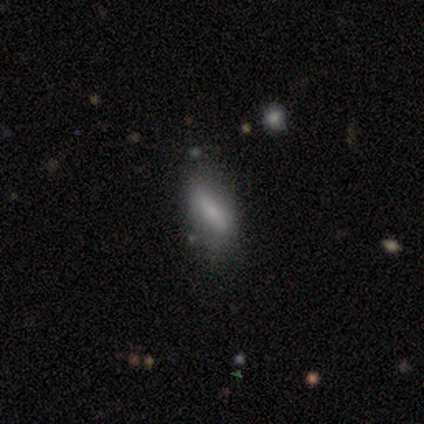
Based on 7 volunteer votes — Smooth or featured? smooth (57%)
How rounded? cigar-shaped (75%)
Merging? none (83%)